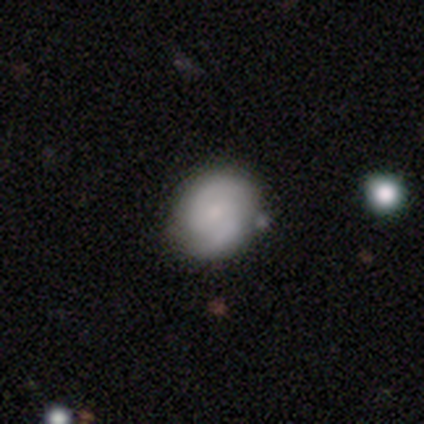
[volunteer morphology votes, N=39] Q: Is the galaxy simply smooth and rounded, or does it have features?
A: featured or disk — 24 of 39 (62%).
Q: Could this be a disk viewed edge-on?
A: no — 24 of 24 (100%).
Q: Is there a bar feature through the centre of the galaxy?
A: no — 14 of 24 (58%).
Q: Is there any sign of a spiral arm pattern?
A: yes — 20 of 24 (83%).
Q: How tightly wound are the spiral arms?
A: medium — 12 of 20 (60%).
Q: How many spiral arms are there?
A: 2 — 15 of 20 (75%).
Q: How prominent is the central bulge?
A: small — 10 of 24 (42%).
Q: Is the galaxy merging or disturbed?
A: none — 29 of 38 (76%).